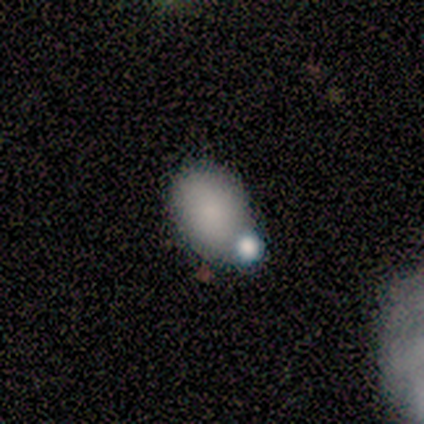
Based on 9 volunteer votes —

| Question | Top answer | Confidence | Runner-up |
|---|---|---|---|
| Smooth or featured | smooth | 89% | star or artifact (11%) |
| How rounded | in between | 75% | round (25%) |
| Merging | none | 75% | minor disturbance (12%) |